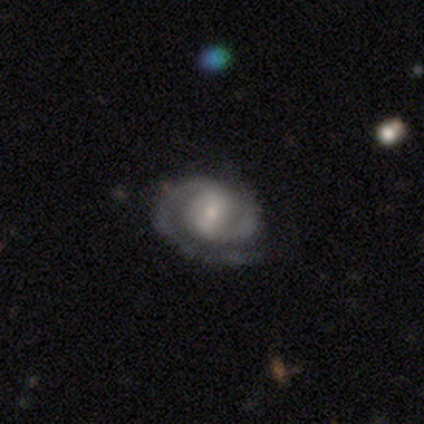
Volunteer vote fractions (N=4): This is likely a featured or disk galaxy (75%). It is clearly not viewed edge-on (100%). Bar: likely strong (67%). Spiral arm pattern: clearly yes (100%). Spiral arm count: likely 2 (67%). Spiral winding: likely tight (67%). Central bulge: likely small (67%). Merging: likely none (67%).